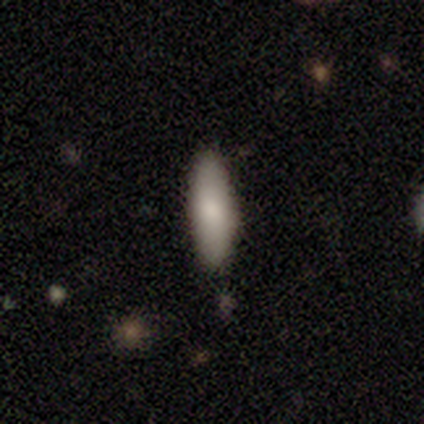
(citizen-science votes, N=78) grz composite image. It shows a smooth galaxy with no disk features (85%) that is in between round and cigar-shaped (59%). Merging: none (40%).